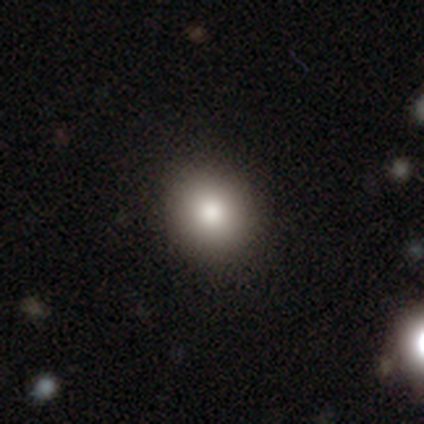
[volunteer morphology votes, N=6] This is clearly a smooth galaxy (83%). How rounded: likely round (60%). Merging: clearly none (83%).